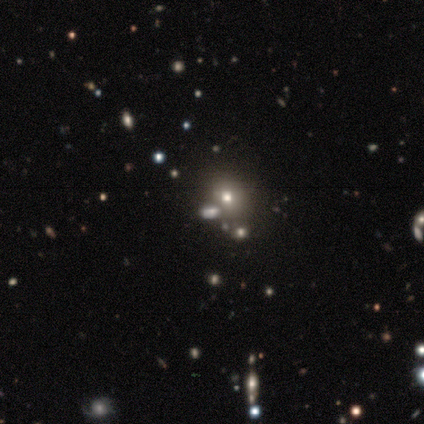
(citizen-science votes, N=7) Smooth or featured?
  - smooth: 71% *
  - featured or disk: 14%
  - star or artifact: 14%
How rounded?
  - in between: 60% *
  - round: 40%
  - cigar-shaped: 0%
Merging?
  - none: 50% *
  - minor disturbance: 33%
  - merger: 17%
  - major disturbance: 0%